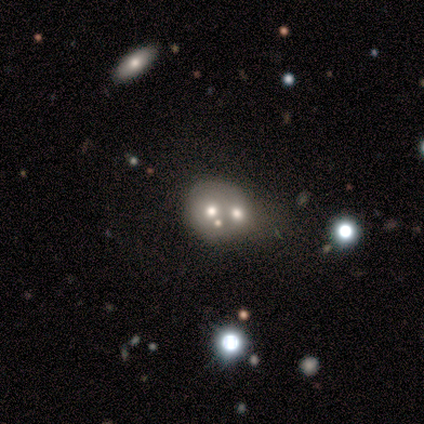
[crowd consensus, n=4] This is possibly a smooth galaxy (50%). How rounded: clearly in between (100%). Merging: likely none (67%).